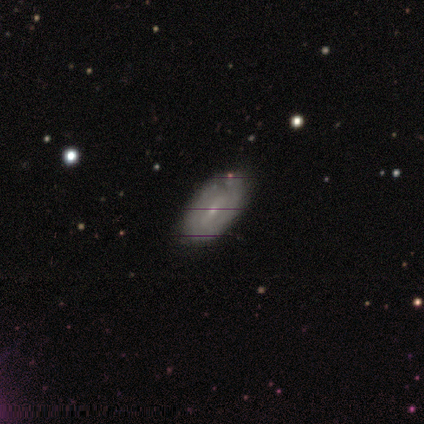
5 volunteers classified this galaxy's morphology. type=featured or disk (60%); edge-on=no (100%); bar=no (100%); spiral arms=yes (67%); winding=tight (100%); arm count=3 (50%, tied with can't tell); bulge=small (67%); merging=none (80%).